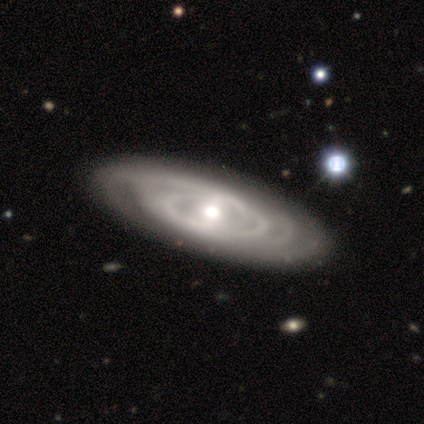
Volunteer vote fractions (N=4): This appears to be a featured or disk galaxy (75%) with no bar (67%), tight (50%, tied with loose) spiral arms (67%) and a large central bulge (67%). Merging: none (67%).